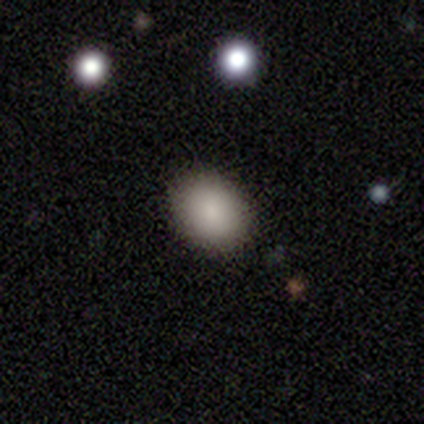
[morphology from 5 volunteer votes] A smooth galaxy with no disk features (100%) that is in between round and cigar-shaped (80%).

Vote fractions:
- Smooth or featured? smooth: 100% / featured or disk: 0% / star or artifact: 0%
- How rounded? in between: 80% / round: 20% / cigar-shaped: 0%
- Merging? none: 80% / minor disturbance: 20% / major disturbance: 0% / merger: 0%